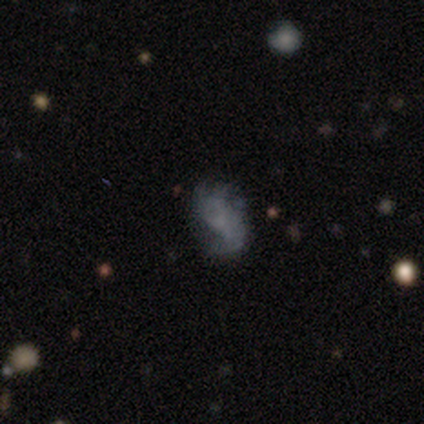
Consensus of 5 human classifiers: Smooth or featured? featured or disk (60%)
Edge-on disk? no (100%)
Bar? no (67%)
Spiral arms? yes (100%)
Spiral winding? medium (67%)
Spiral arm count? 1 (67%)
Bulge size? none (67%)
Merging? none (40%, tied with minor disturbance)